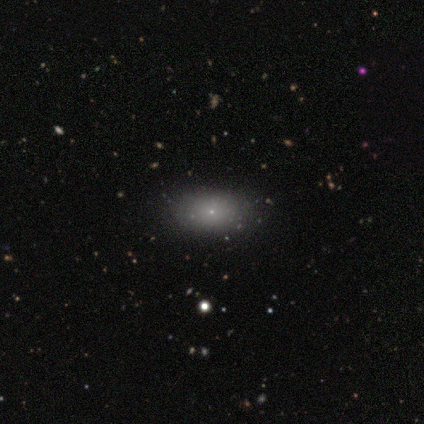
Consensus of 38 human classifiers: A smooth galaxy with no disk features (76%) that is in between round and cigar-shaped (79%). Merging: none (94%).